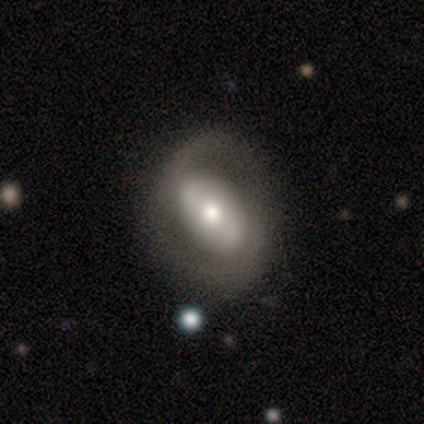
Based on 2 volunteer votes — A smooth galaxy with no disk features (50%, tied with featured or disk) that is in between round and cigar-shaped (100%).

Vote fractions:
- Smooth or featured? smooth: 50% (tied) / featured or disk: 50% (tied) / star or artifact: 0%
- How rounded? in between: 100% / round: 0% / cigar-shaped: 0%
- Merging? none: 50% (tied) / minor disturbance: 50% (tied) / major disturbance: 0% / merger: 0%